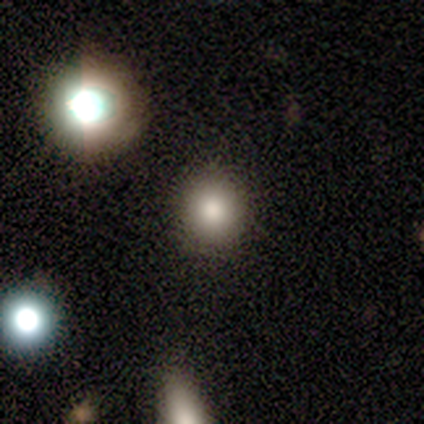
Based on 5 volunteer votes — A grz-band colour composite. It shows a smooth galaxy with no disk features (80%) that is round (100%). Merging: none (100%).